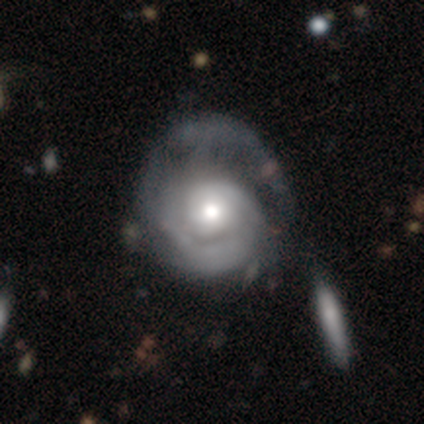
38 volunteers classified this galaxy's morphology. Q: Smooth or featured?
A: featured or disk (87%); runner-up: smooth (8%)
Q: Edge-on disk?
A: no (97%); runner-up: yes (3%)
Q: Bar?
A: no (91%); runner-up: weak (6%)
Q: Spiral arms?
A: yes (97%); runner-up: no (3%)
Q: Spiral winding?
A: tight (65%); runner-up: medium (32%)
Q: Spiral arm count?
A: can't tell (45%); runner-up: 1 (35%)
Q: Bulge size?
A: moderate (62%); runner-up: large (22%)
Q: Merging?
A: major disturbance (22%); runner-up: none (17%)